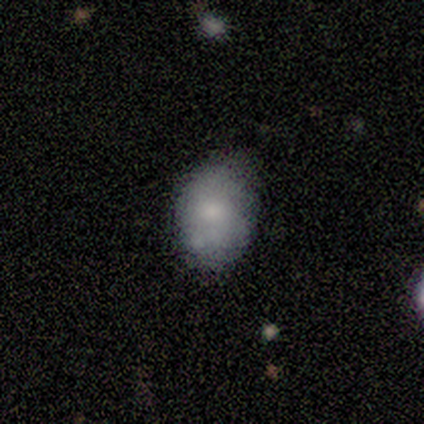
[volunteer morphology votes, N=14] smooth-or-featured: smooth: 71% | featured or disk: 29% | star or artifact: 0%
  how-rounded: in between: 80% | round: 20% | cigar-shaped: 0%
  merging: none: 50% (tied) | minor disturbance: 50% (tied) | major disturbance: 0% | merger: 0%